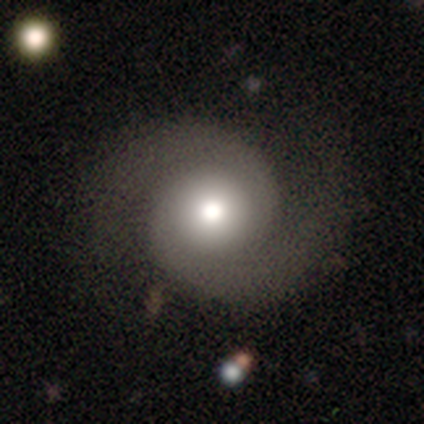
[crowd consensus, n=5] Smooth or featured? 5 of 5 (100%) said featured or disk. Edge-on disk? 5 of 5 (100%) said no. Bar? 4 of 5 (80%) said no. Spiral arms? 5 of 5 (100%) said yes. Spiral winding? 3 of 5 (60%) said medium. Spiral arm count? 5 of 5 (100%) said 2. Bulge size? 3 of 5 (60%) said large. Merging? 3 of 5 (60%) said none.